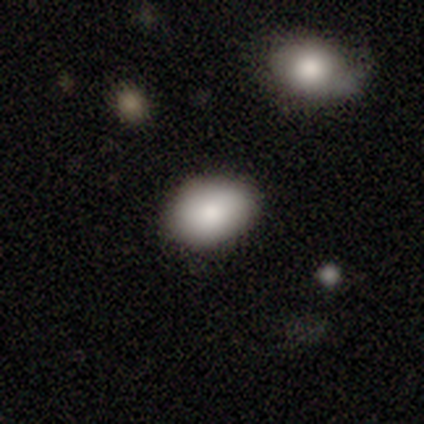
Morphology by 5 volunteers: A smooth galaxy with no disk features (80%) that is round (50%, tied with in between).

Vote fractions:
- Smooth or featured? smooth: 80% / featured or disk: 20% / star or artifact: 0%
- How rounded? round: 50% (tied) / in between: 50% (tied) / cigar-shaped: 0%
- Merging? none: 100% / minor disturbance: 0% / major disturbance: 0% / merger: 0%